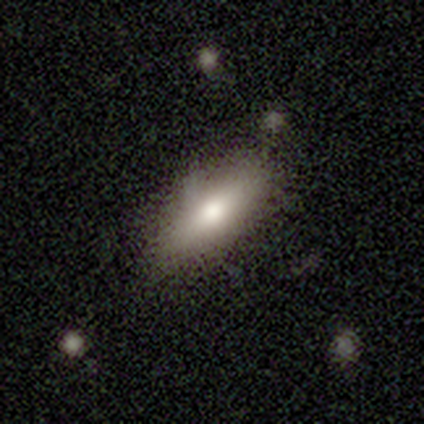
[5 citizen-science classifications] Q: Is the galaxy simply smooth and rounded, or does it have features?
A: smooth — 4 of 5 (80%).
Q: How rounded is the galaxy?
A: in between — 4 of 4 (100%).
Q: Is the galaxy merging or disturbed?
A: none — 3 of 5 (60%).